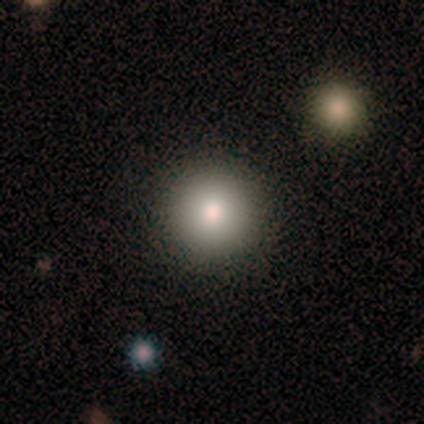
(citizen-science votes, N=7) smooth-or-featured: smooth: 100% | featured or disk: 0% | star or artifact: 0%
  how-rounded: round: 100% | in between: 0% | cigar-shaped: 0%
  merging: none: 100% | minor disturbance: 0% | major disturbance: 0% | merger: 0%